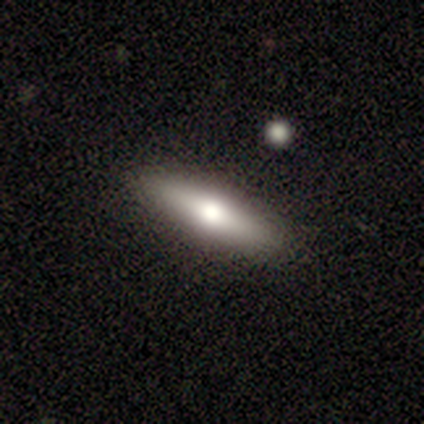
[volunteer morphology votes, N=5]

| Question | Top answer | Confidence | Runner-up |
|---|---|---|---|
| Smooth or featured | smooth | 100% | — |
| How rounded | cigar-shaped | 60% | in between (40%) |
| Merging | none | 80% | minor disturbance (20%) |